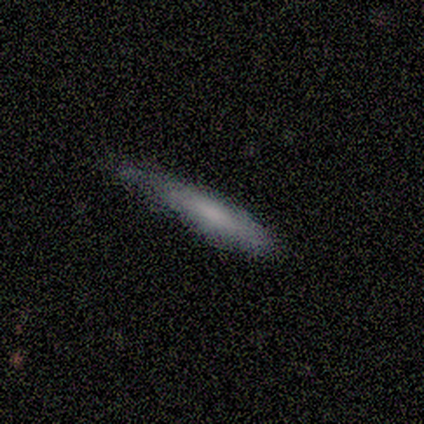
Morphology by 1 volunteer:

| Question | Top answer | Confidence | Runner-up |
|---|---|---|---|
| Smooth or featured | featured or disk | 100% | — |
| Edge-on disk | no | 100% | — |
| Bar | no | 100% | — |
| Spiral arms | no | 100% | — |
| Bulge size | large | 100% | — |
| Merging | major disturbance | 100% | — |